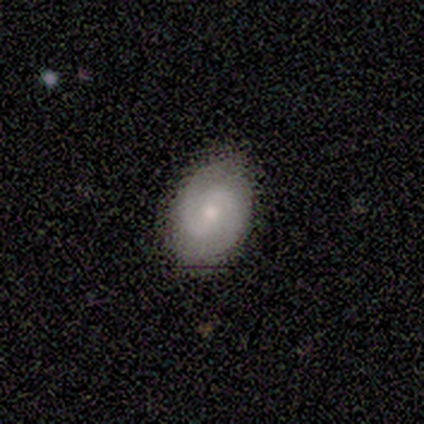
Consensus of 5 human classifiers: Volunteers were most divided on "spiral winding" (2-way tie): tight: 40%, medium: 40%, loose: 20%. More confident: smooth or featured — featured or disk (100%); edge-on disk — no (100%); spiral arms — yes (100%); spiral arm count — 2 (100%); merging — none (80%); bar — no (60%); bulge size — moderate (60%).